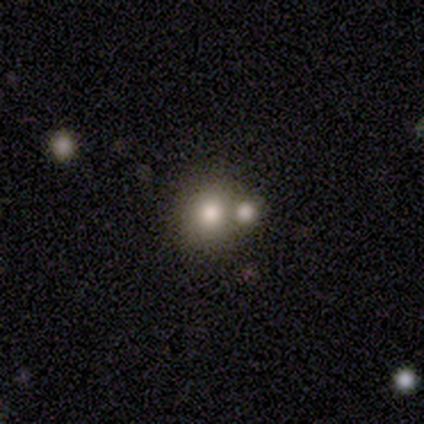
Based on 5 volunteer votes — Volunteers were most divided on "merging" (2-way tie): none: 40%, merger: 40%, minor disturbance: 20%, major disturbance: 0%. More confident: smooth or featured — smooth (80%); how rounded — round (75%).